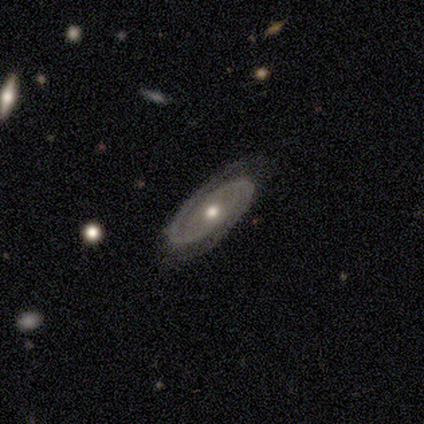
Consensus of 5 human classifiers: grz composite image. It shows a featured or disk galaxy (100%) with no bar (75%), 2 (100%) tight (50%) spiral arms (100%) and a moderate central bulge (75%). Merging: none (80%).